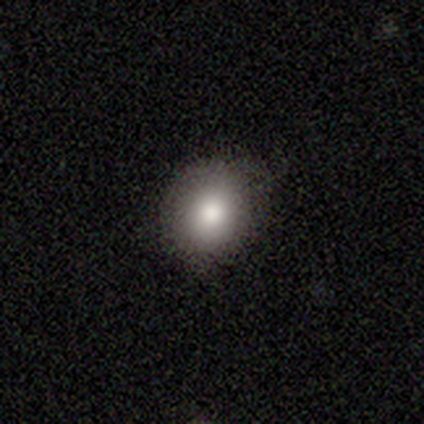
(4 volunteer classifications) smooth-or-featured: smooth: 50% | featured or disk: 25% | star or artifact: 25%
  how-rounded: round: 100% | in between: 0% | cigar-shaped: 0%
  merging: none: 100% | minor disturbance: 0% | major disturbance: 0% | merger: 0%